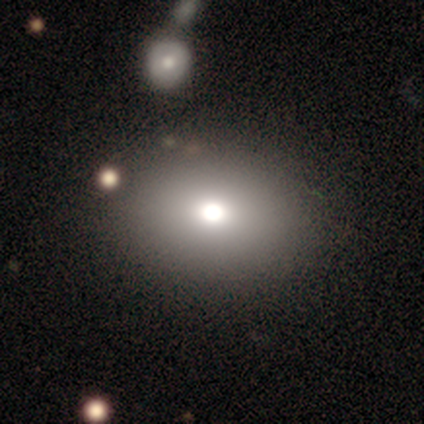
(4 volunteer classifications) Q: Smooth or featured?
A: smooth (75%); runner-up: featured or disk (25%)
Q: How rounded?
A: in between (67%); runner-up: round (33%)
Q: Merging?
A: none (100%)